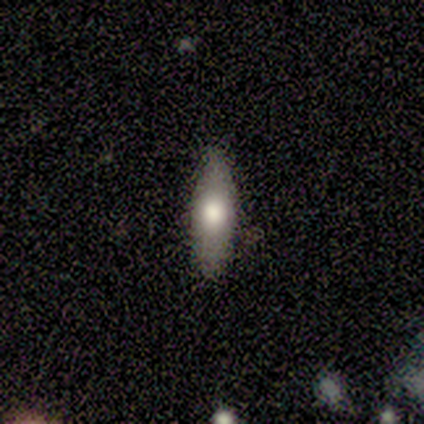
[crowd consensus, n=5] smooth_or_featured: smooth (p=0.80) [alt: featured or disk p=0.20]
how_rounded: in between (p=1.00)
merging: none (p=1.00)